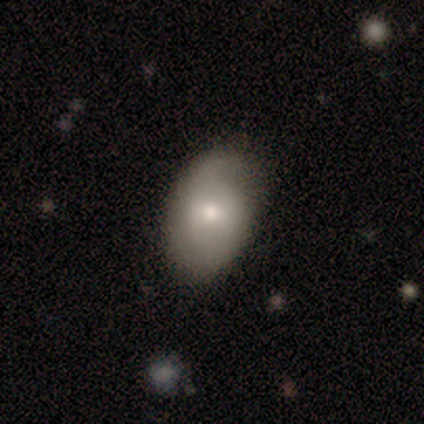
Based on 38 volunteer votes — Smooth or featured: smooth — 58% (featured or disk — 32%)
How rounded: in between — 82% (round — 18%)
Merging: none — 68% (minor disturbance — 32%)